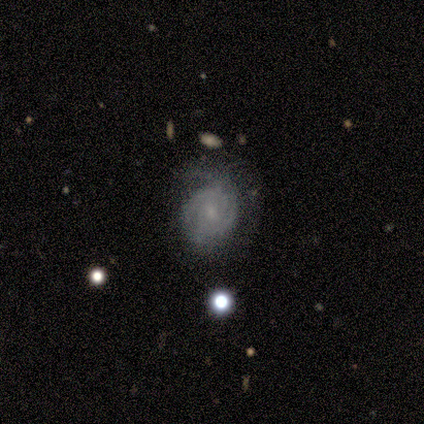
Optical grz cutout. It shows a featured or disk galaxy (86%) with a weak bar (67%), 3 (50%) tight (67%) spiral arms (100%) and a moderate central bulge (50%, tied with small). Merging: none (57%).